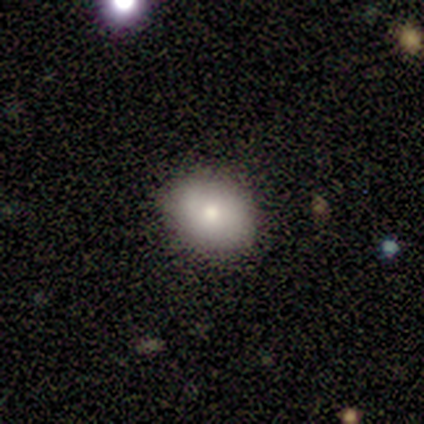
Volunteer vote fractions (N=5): Smooth or featured? smooth (60%)
How rounded? in between (67%)
Merging? none (80%)